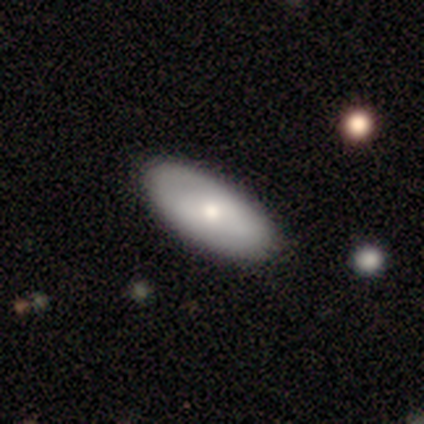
A smooth galaxy with no disk features (100%) that is in between round and cigar-shaped (88%).

Vote fractions:
- Smooth or featured? smooth: 100% / featured or disk: 0% / star or artifact: 0%
- How rounded? in between: 88% / cigar-shaped: 12% / round: 0%
- Merging? none: 88% / minor disturbance: 12% / major disturbance: 0% / merger: 0%